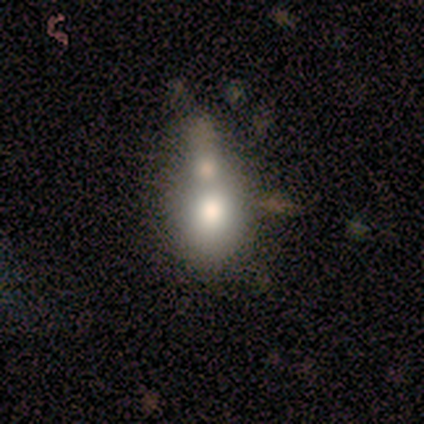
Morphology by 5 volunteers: Smooth or featured? 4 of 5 (80%) said smooth. How rounded? 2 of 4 (50%, tied with in between) said round. Merging? 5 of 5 (100%) said merger.